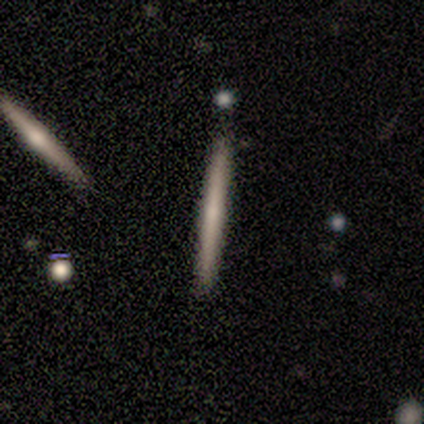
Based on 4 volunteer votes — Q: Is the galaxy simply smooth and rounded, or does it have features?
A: smooth — 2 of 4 (50%, tied with featured or disk).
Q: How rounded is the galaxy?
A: cigar-shaped — 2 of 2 (100%).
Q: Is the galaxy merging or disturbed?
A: none — 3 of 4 (75%).